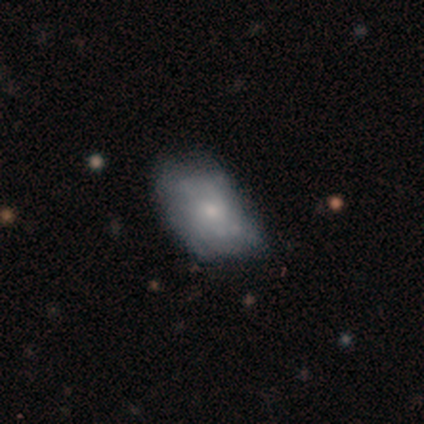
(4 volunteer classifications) Smooth or featured: featured or disk — 75% (smooth — 25%)
Edge-on disk: no — 100%
Bar: no — 67% (weak — 33%)
Spiral arms: no — 67% (yes — 33%)
Bulge size: small — 67% (moderate — 33%)
Merging: none — 50% (minor disturbance — 25%)